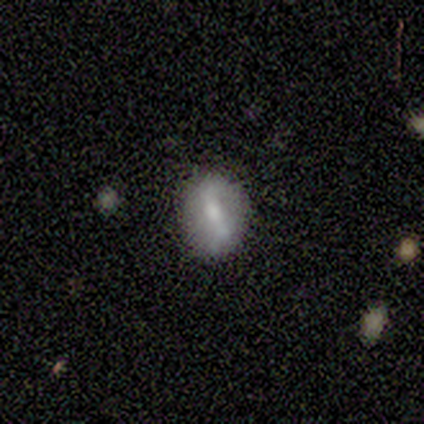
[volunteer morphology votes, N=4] A smooth galaxy with no disk features (100%) that is in between round and cigar-shaped (75%).

Vote fractions:
- Smooth or featured? smooth: 100% / featured or disk: 0% / star or artifact: 0%
- How rounded? in between: 75% / round: 25% / cigar-shaped: 0%
- Merging? none: 75% / minor disturbance: 25% / major disturbance: 0% / merger: 0%